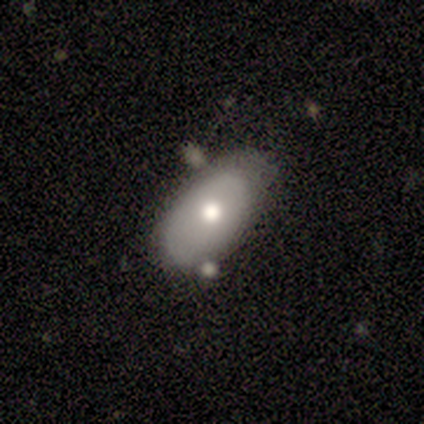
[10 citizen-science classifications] A smooth galaxy with no disk features (90%) that is in between round and cigar-shaped (100%).

Vote fractions:
- Smooth or featured? smooth: 90% / featured or disk: 10% / star or artifact: 0%
- How rounded? in between: 100% / round: 0% / cigar-shaped: 0%
- Merging? none: 60% / minor disturbance: 40% / major disturbance: 0% / merger: 0%